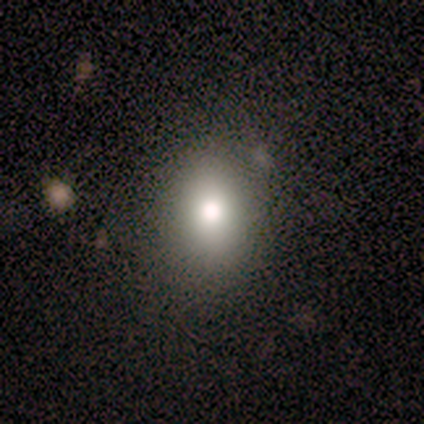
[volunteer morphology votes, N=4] Smooth or featured? smooth (100%)
How rounded? in between (100%)
Merging? major disturbance (50%)